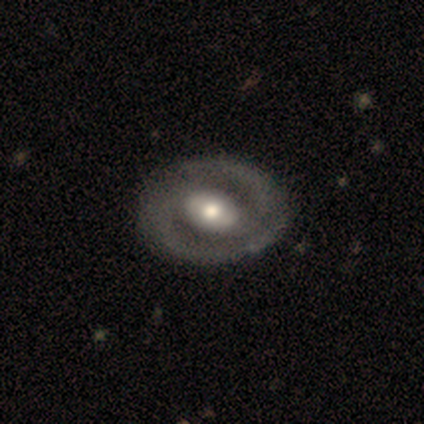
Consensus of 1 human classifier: A featured or disk galaxy (100%) with a strong bar (100%), 2 (100%) tight (100%) spiral arms (100%) and a moderate central bulge (100%).

Vote fractions:
- Smooth or featured? featured or disk: 100% / smooth: 0% / star or artifact: 0%
- Edge-on disk? no: 100% / yes: 0%
- Bar? strong: 100% / weak: 0% / no: 0%
- Spiral arms? yes: 100% / no: 0%
- Spiral winding? tight: 100% / medium: 0% / loose: 0%
- Spiral arm count? 2: 100% / 1: 0% / 3: 0% / 4: 0% / more than 4: 0% / can't tell: 0%
- Bulge size? moderate: 100% / dominant: 0% / large: 0% / small: 0% / none: 0%
- Merging? none: 100% / minor disturbance: 0% / major disturbance: 0% / merger: 0%